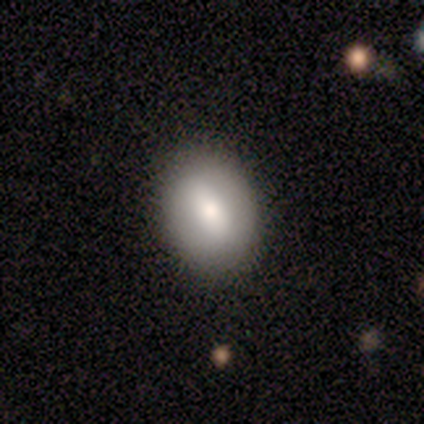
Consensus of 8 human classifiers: Q: Smooth or featured?
A: smooth (50%); tied with: featured or disk (50%)
Q: How rounded?
A: round (50%); tied with: in between (50%)
Q: Merging?
A: none (100%)